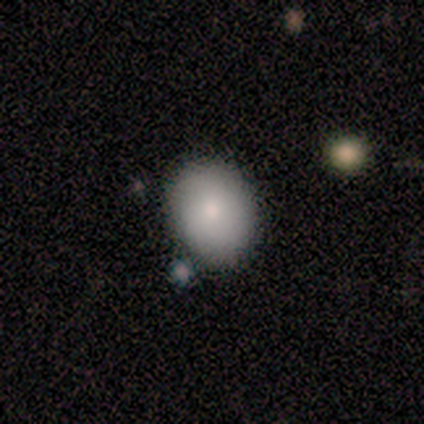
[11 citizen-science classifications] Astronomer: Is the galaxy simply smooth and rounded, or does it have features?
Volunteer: smooth — 100%.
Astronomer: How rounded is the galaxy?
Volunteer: round — 73%.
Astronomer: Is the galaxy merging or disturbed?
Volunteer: none — 73%.